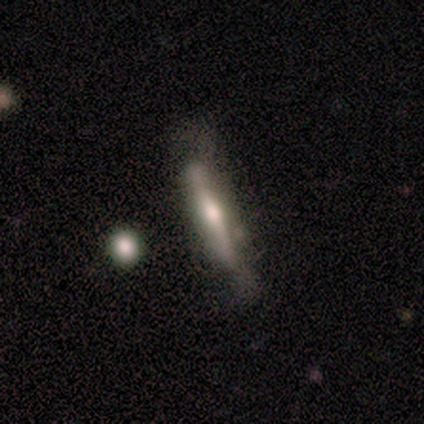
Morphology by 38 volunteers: Q: Smooth or featured?
A: featured or disk (68%); runner-up: smooth (29%)
Q: Edge-on disk?
A: yes (96%); runner-up: no (4%)
Q: Edge-on bulge?
A: rounded (64%); runner-up: boxy (24%)
Q: Merging?
A: none (49%); runner-up: minor disturbance (27%)